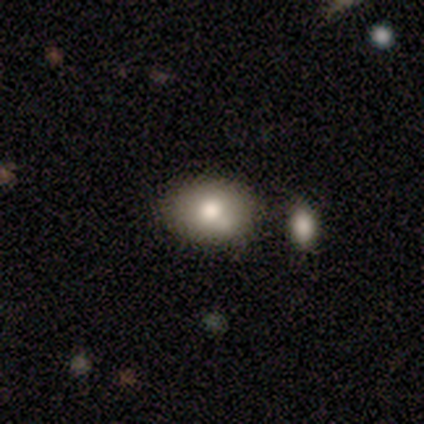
Morphology: type=smooth (80%); roundness=round (75%); merging=none (80%).